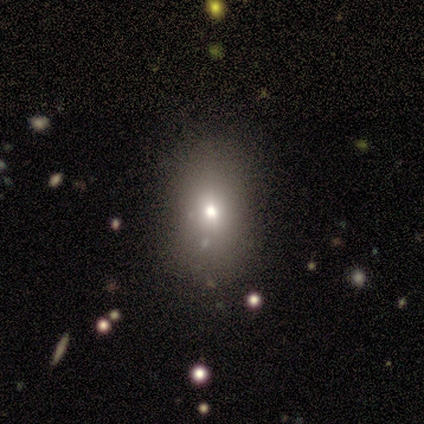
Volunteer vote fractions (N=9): Smooth or featured?
  - smooth: 56% *
  - featured or disk: 22%
  - star or artifact: 22%
How rounded?
  - in between: 100% *
  - round: 0%
  - cigar-shaped: 0%
Merging?
  - none: 71% *
  - minor disturbance: 14%
  - merger: 14%
  - major disturbance: 0%